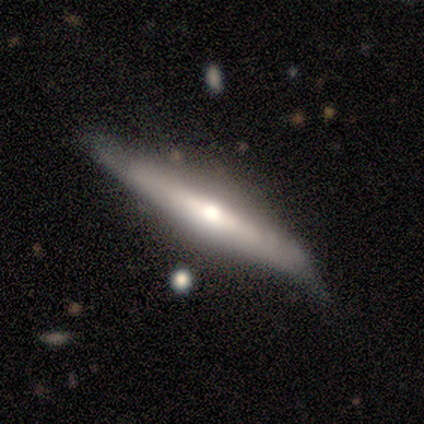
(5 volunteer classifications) smooth-or-featured: featured or disk: 80% | smooth: 20% | star or artifact: 0%
  disk-edge-on: yes: 100% | no: 0%
    edge-on-bulge: rounded: 75% | none: 25% | boxy: 0%
  merging: minor disturbance: 60% | none: 20% | merger: 20% | major disturbance: 0%